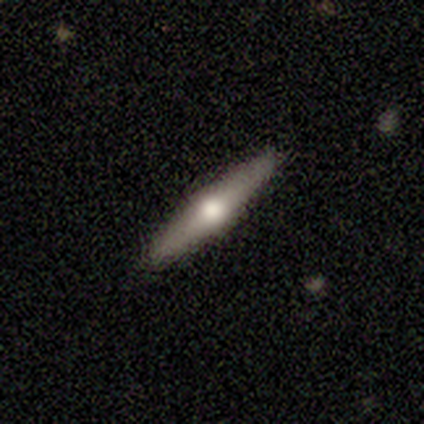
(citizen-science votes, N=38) smooth_or_featured: featured or disk (p=0.68) [alt: smooth p=0.32]
disk_edge_on: yes (p=1.00)
edge_on_bulge: rounded (p=0.92) [alt: boxy p=0.04]
merging: none (p=1.00)